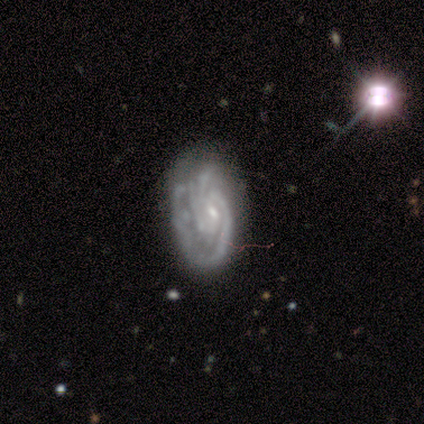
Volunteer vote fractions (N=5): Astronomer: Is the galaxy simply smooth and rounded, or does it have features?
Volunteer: featured or disk — 80%.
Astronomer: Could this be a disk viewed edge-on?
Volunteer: no — 100%.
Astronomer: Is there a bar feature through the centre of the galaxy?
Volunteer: weak — 75%.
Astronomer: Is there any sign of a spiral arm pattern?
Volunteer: yes — 100%.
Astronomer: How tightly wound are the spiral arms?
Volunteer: tight — 75%.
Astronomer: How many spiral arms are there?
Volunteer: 3 — 50%.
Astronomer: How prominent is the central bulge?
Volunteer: small — 100%.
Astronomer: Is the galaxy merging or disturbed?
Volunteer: none — 50%.